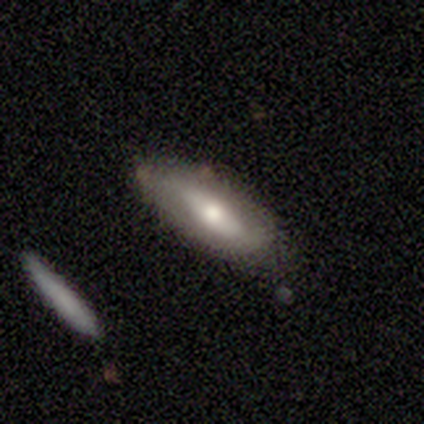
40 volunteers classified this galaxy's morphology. Smooth or featured? 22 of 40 (55%) said smooth. How rounded? 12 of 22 (55%) said in between. Merging? 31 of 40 (78%) said none.